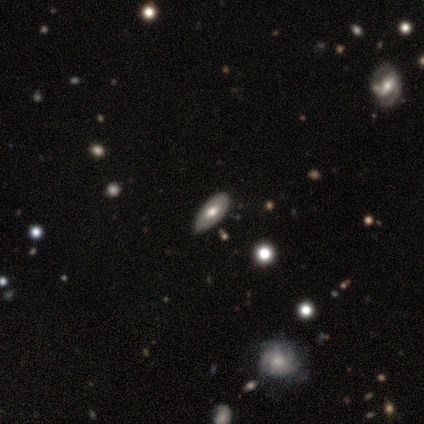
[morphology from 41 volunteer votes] This appears to be a smooth galaxy with no disk features (59%) that is in between round and cigar-shaped (83%). Merging: none (57%).